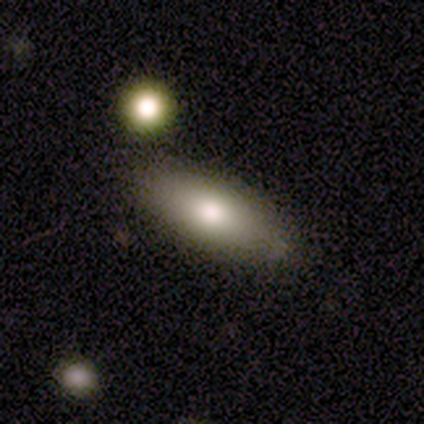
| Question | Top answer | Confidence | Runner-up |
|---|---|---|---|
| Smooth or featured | smooth | 90% | featured or disk (5%) |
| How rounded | in between | 81% | cigar-shaped (19%) |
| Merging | none | 89% | minor disturbance (11%) |